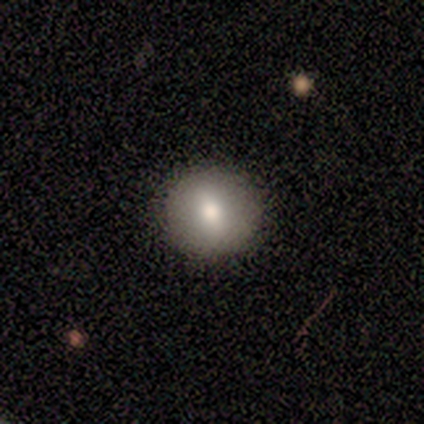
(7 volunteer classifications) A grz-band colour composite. It shows a smooth galaxy with no disk features (86%) that is round (100%). Merging: none (100%).